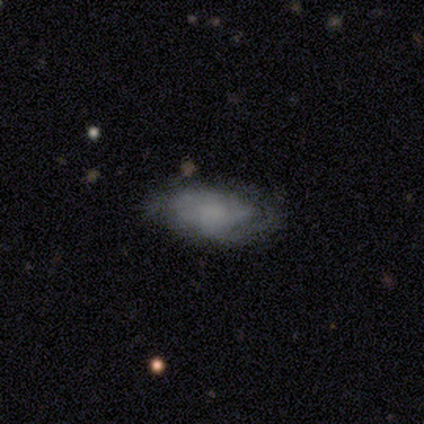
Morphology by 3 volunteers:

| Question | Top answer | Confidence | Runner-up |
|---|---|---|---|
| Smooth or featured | smooth | 67% | featured or disk (33%) |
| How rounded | round | 50% | tied: in between (50%) |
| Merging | minor disturbance | 67% | none (33%) |